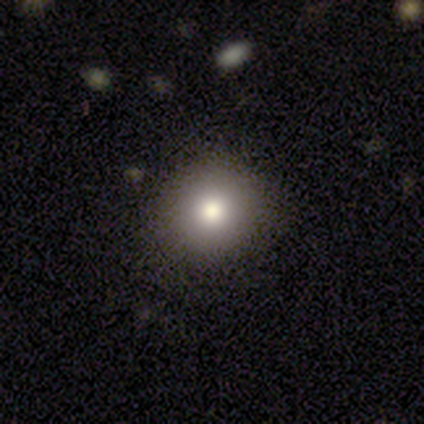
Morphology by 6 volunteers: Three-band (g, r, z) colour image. It shows a smooth galaxy with no disk features (83%) that is round (100%). Merging: none (67%).